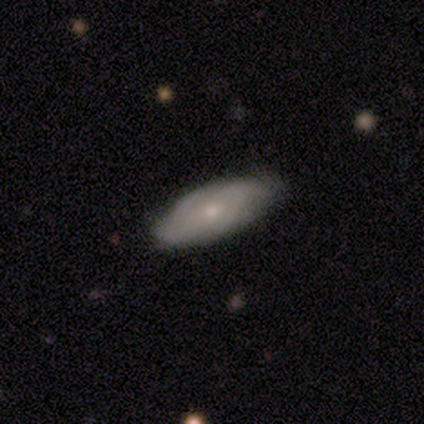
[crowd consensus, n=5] Smooth or featured: smooth — 80% (featured or disk — 20%)
How rounded: in between — 75% (cigar-shaped — 25%)
Merging: none — 60% (minor disturbance — 40%)